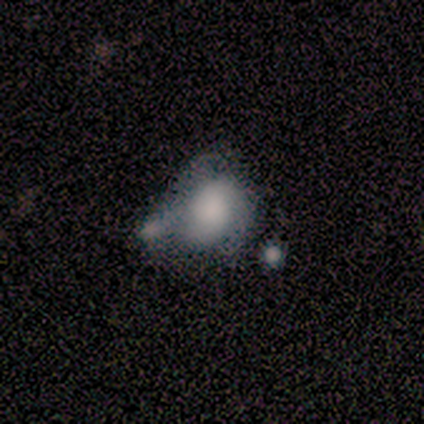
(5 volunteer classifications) Smooth or featured? smooth (80%)
How rounded? round (50%, tied with in between)
Merging? merger (40%)